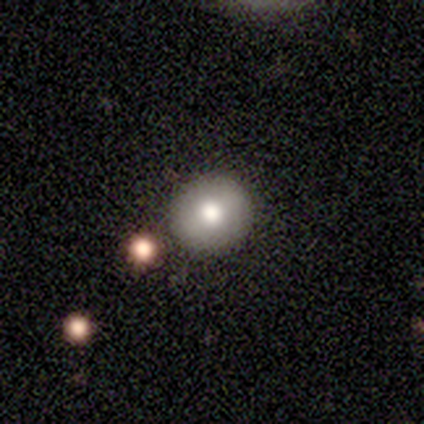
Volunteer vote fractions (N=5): smooth_or_featured: smooth (p=1.00)
how_rounded: round (p=0.80) [alt: in between p=0.20]
merging: none (p=0.80) [alt: merger p=0.20]